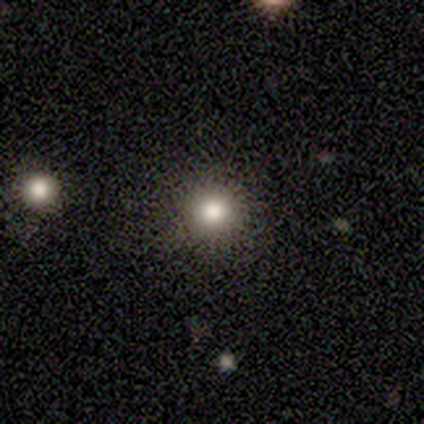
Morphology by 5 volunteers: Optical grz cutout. It shows a smooth galaxy with no disk features (100%) that is round (100%). Merging: none (100%).